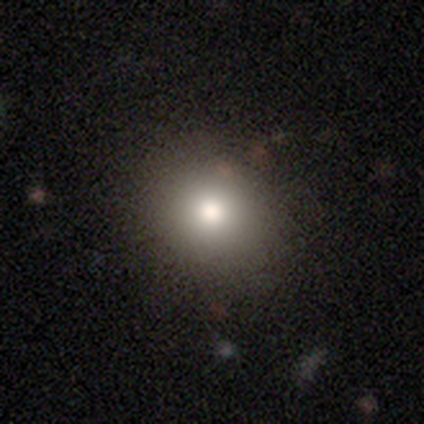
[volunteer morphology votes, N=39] smooth 87%, star or artifact 8%, featured or disk 5%. Down the decision tree: how rounded — round (85%); merging — none (94%).